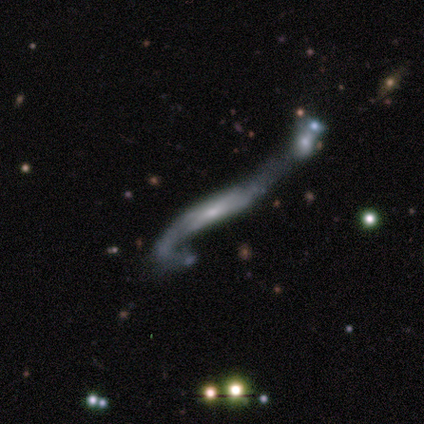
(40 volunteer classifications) This appears to be a featured or disk galaxy (70%) viewed edge-on (50%, tied with no) with no central bulge (36%, tied with rounded). Merging: merger (53%).